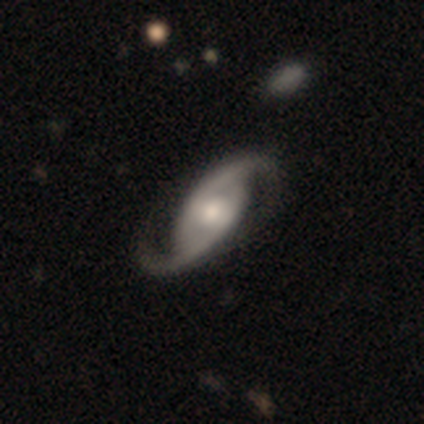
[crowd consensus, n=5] A featured or disk galaxy (100%) with a strong bar (40%, tied with no), 2 (100%) medium (60%) spiral arms (100%) and a moderate central bulge (80%). Merging: none (80%).